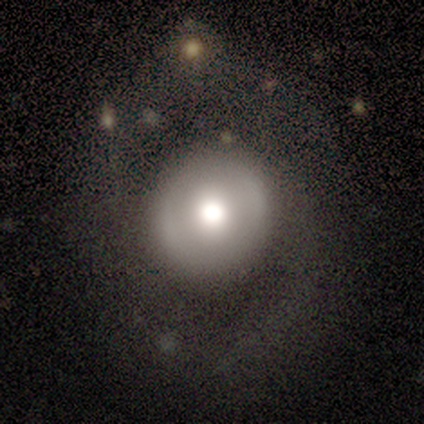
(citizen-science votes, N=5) Q: Smooth or featured?
A: smooth (80%); runner-up: featured or disk (20%)
Q: How rounded?
A: round (100%)
Q: Merging?
A: none (80%); runner-up: major disturbance (20%)